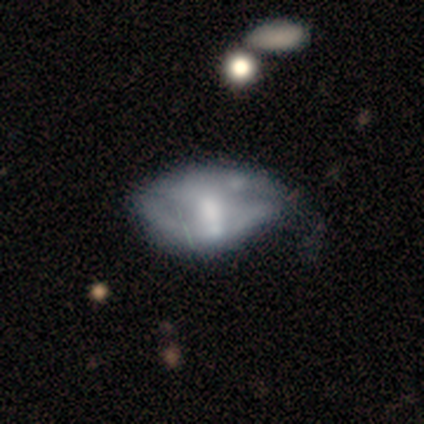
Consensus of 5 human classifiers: Smooth or featured: featured or disk — 60% (smooth — 40%)
Edge-on disk: no — 100%
Bar: no — 67% (weak — 33%)
Spiral arms: no — 100%
Bulge size: moderate — 67% (none — 33%)
Merging: minor disturbance — 80% (major disturbance — 20%)